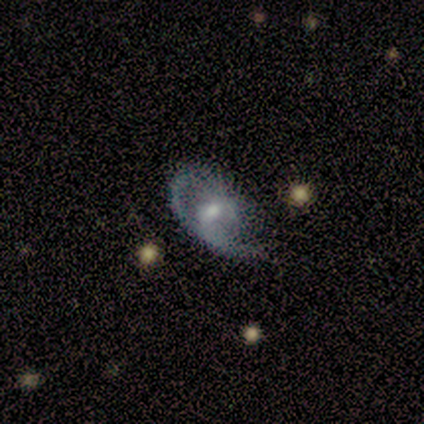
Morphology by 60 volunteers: Smooth or featured?
  - featured or disk: 83% *
  - smooth: 13%
  - star or artifact: 3%
Edge-on disk?
  - no: 98% *
  - yes: 2%
Bar?
  - no: 55% *
  - weak: 37%
  - strong: 8%
Spiral arms?
  - yes: 80% *
  - no: 20%
Spiral winding?
  - medium: 41% *
  - tight: 31%
  - loose: 28%
Spiral arm count?
  - 1: 54% *
  - 2: 38%
  - can't tell: 8%
  - 3: 0%
  - 4: 0%
  - more than 4: 0%
Bulge size?
  - moderate: 63% *
  - small: 31%
  - none: 6%
  - dominant: 0%
  - large: 0%
Merging?
  - none: 38% *
  - major disturbance: 33%
  - minor disturbance: 28%
  - merger: 2%